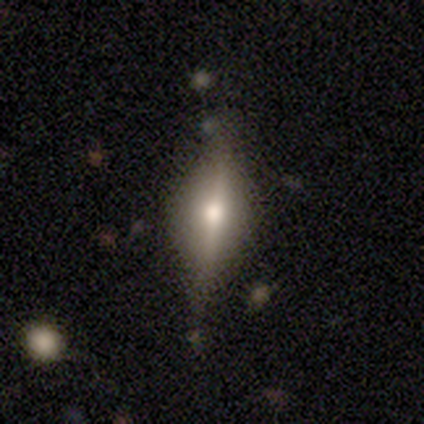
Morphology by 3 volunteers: Smooth or featured: featured or disk — 67% (smooth — 33%)
Edge-on disk: yes — 100%
Edge-on bulge: boxy — 50% (tied with rounded — 50%)
Merging: none — 33% (tied with minor disturbance — 33%; merger — 33%)